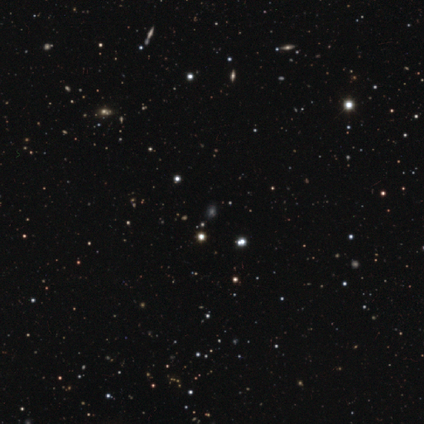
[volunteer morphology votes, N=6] Overall: star or artifact (67%).